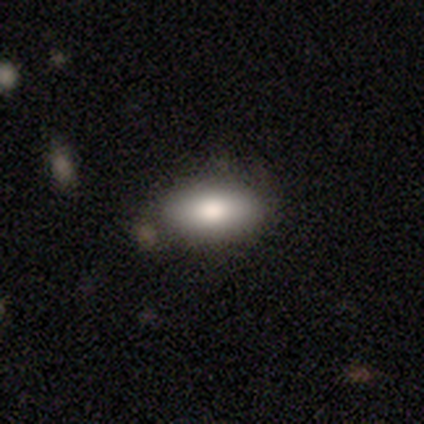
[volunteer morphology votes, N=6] Smooth or featured: smooth — 100%
How rounded: in between — 67% (cigar-shaped — 33%)
Merging: none — 83% (minor disturbance — 17%)